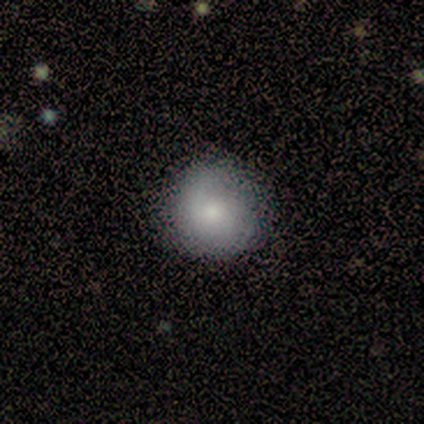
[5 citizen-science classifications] smooth_or_featured: smooth (p=0.80) [alt: featured or disk p=0.20]
how_rounded: round (p=1.00)
merging: none (p=0.80) [alt: minor disturbance p=0.20]